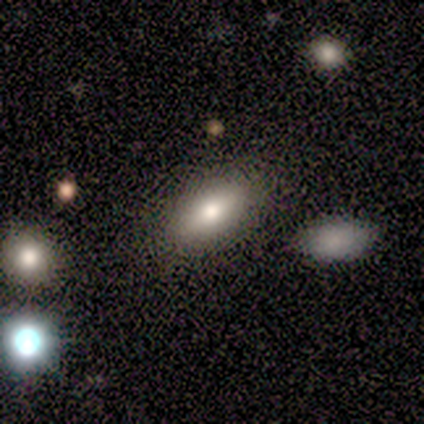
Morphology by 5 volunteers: Smooth or featured?
  - smooth: 100% *
  - featured or disk: 0%
  - star or artifact: 0%
How rounded?
  - in between: 100% *
  - round: 0%
  - cigar-shaped: 0%
Merging?
  - none: 80% *
  - minor disturbance: 20%
  - major disturbance: 0%
  - merger: 0%